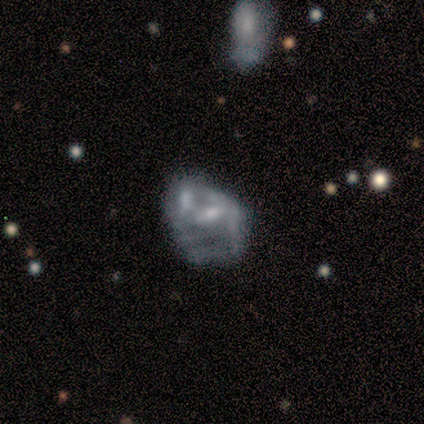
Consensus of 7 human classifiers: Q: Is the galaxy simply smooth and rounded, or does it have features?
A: featured or disk — 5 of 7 (71%).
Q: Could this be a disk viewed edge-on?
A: no — 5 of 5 (100%).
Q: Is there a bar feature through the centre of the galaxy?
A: no — 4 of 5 (80%).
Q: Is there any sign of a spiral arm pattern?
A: no — 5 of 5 (100%).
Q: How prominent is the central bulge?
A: moderate — 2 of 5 (40%, tied with none).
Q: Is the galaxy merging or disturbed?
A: major disturbance — 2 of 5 (40%, tied with merger).